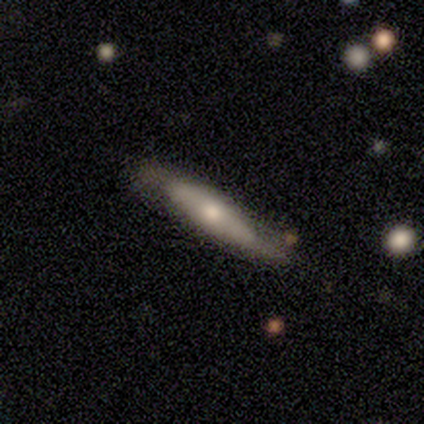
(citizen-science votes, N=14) Overall: featured or disk (50%; smooth 43%). Edge-on disk: yes (71%). Edge-on bulge: rounded (80%). Merging: none (85%).